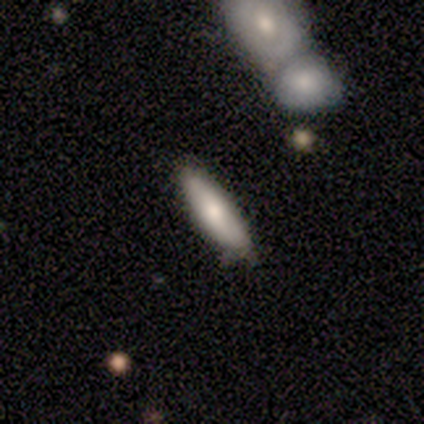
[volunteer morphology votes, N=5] Volunteers were most divided on "how rounded" (2-way tie): in between: 50%, cigar-shaped: 50%, round: 0%. More confident: smooth or featured — smooth (80%); merging — none (80%).